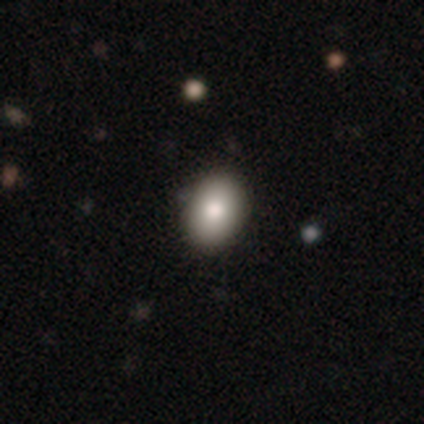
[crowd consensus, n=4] Smooth or featured? 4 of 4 (100%) said smooth. How rounded? 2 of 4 (50%) said in between. Merging? 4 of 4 (100%) said none.